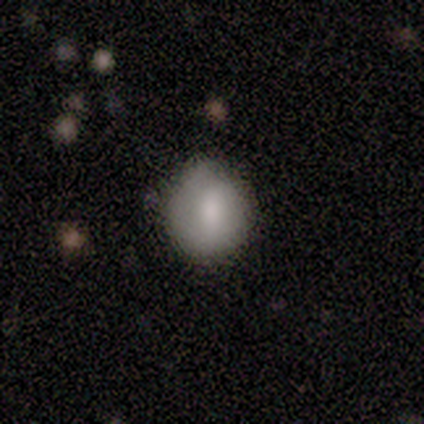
Overall: smooth (86%). How rounded: in between (67%; round 33%). Merging: none (83%).